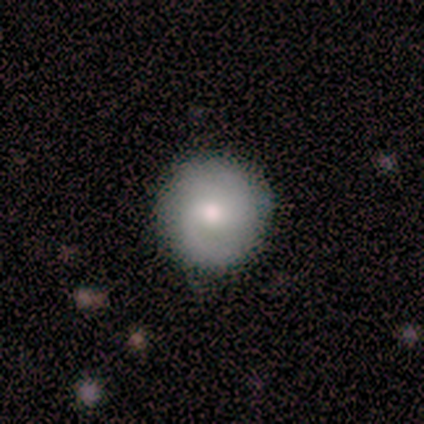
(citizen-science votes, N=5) Morphology: type=smooth (60%); roundness=round (100%); merging=none (100%).